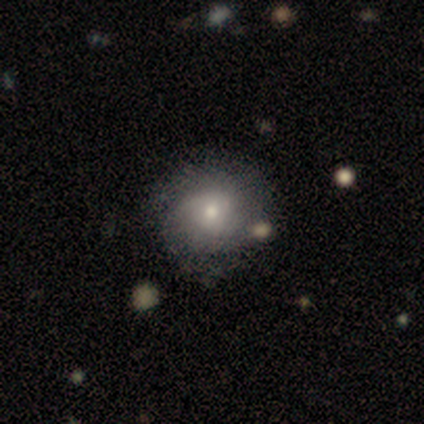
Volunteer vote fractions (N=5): Q: Smooth or featured?
A: smooth (60%); runner-up: featured or disk (40%)
Q: How rounded?
A: round (33%); tied with: in between (33%); cigar-shaped (33%)
Q: Merging?
A: none (60%); runner-up: minor disturbance (20%)